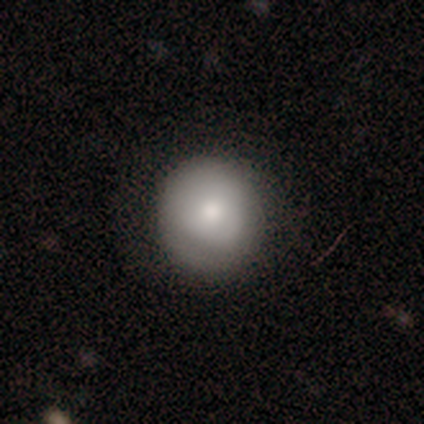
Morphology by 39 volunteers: Overall: smooth (85%). How rounded: round (94%). Merging: none (83%).